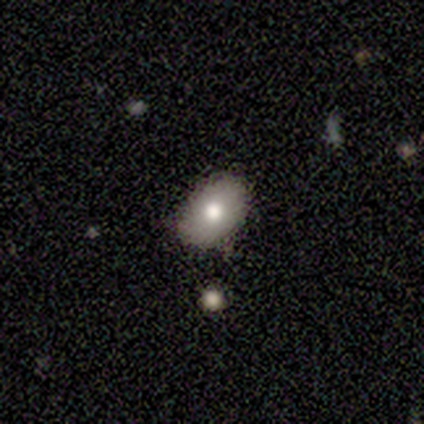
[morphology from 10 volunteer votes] smooth_or_featured: smooth (p=0.90) [alt: featured or disk p=0.10]
how_rounded: in between (p=0.89) [alt: round p=0.11]
merging: none (p=1.00)